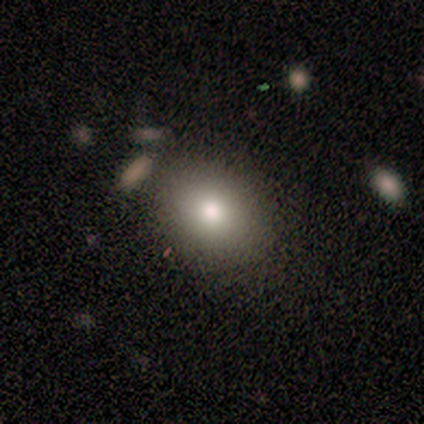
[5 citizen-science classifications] Volunteers were most divided on "how rounded" (2-way tie): round: 50%, in between: 50%, cigar-shaped: 0%. More confident: merging — none (100%); smooth or featured — smooth (80%).